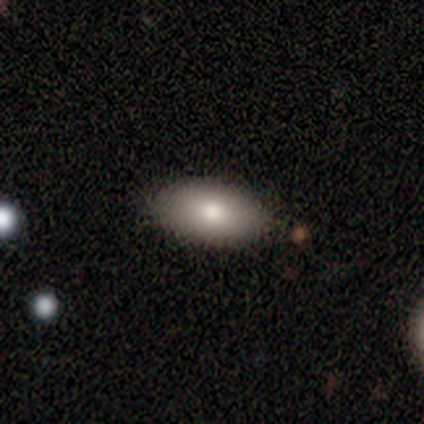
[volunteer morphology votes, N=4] Smooth or featured: smooth — 100%
How rounded: in between — 100%
Merging: none — 100%